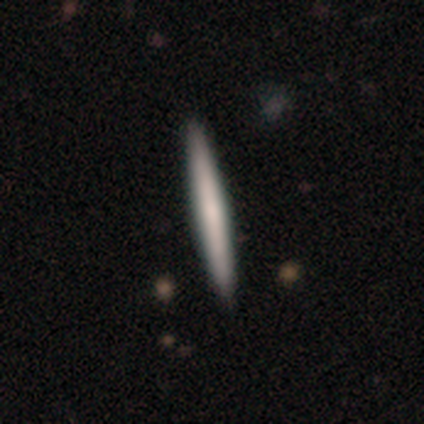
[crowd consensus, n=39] Smooth or featured? smooth (62%)
How rounded? cigar-shaped (100%)
Merging? none (64%)